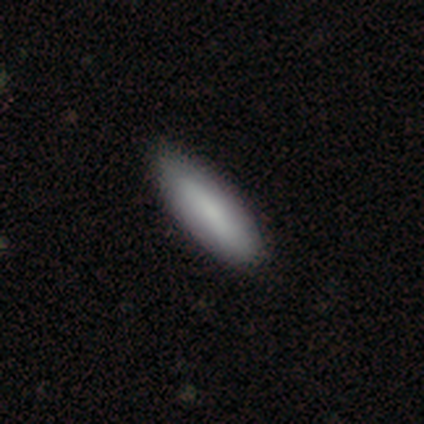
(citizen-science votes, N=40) A smooth galaxy with no disk features (88%) that is in between round and cigar-shaped (57%).

Vote fractions:
- Smooth or featured? smooth: 88% / featured or disk: 10% / star or artifact: 2%
- How rounded? in between: 57% / cigar-shaped: 43% / round: 0%
- Merging? none: 72% / minor disturbance: 3% / major disturbance: 3% / merger: 0%